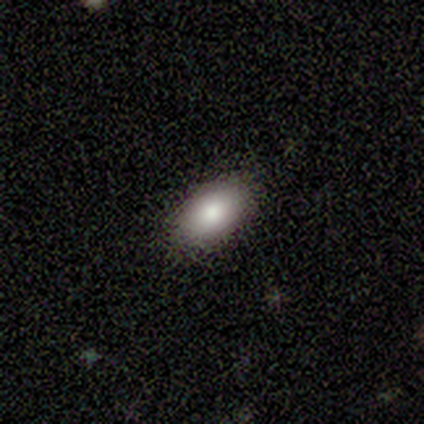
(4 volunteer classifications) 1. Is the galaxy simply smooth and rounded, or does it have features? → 100% smooth, 0% featured or disk, 0% star or artifact.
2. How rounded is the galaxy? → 75% in between, 25% round, 0% cigar-shaped.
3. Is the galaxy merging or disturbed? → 100% none, 0% minor disturbance, 0% major disturbance, 0% merger.